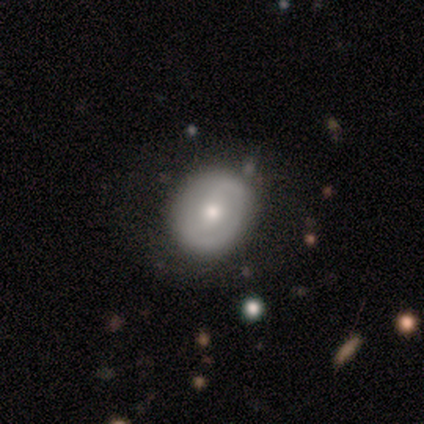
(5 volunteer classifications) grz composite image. It shows a featured or disk galaxy (100%) with no bar (60%), no spiral arms (60%) and a moderate central bulge (100%). Merging: none (80%).